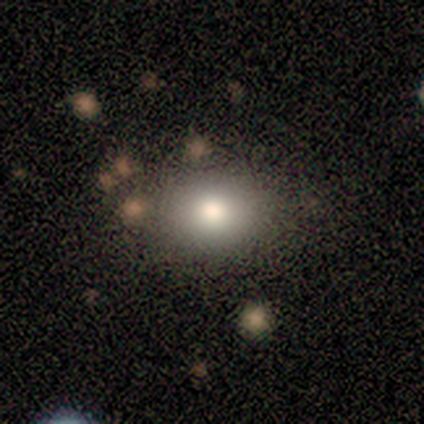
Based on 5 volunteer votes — A smooth galaxy with no disk features (80%) that is round (75%). Merging: none (100%).